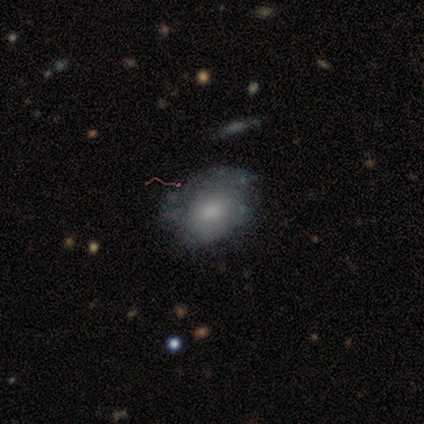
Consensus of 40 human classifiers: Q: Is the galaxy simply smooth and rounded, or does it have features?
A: featured or disk — 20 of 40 (50%).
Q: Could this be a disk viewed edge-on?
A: no — 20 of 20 (100%).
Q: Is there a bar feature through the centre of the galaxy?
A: no — 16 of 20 (80%).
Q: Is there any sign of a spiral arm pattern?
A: no — 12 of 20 (60%).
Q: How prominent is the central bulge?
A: moderate — 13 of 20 (65%).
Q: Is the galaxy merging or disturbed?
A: minor disturbance — 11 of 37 (30%).